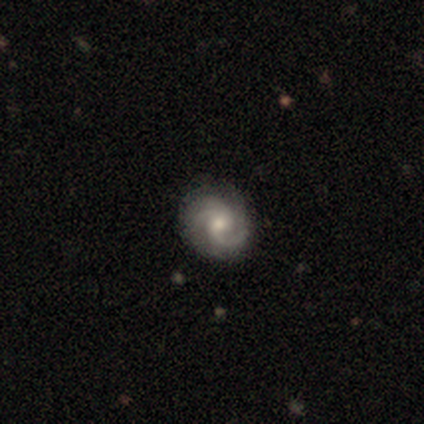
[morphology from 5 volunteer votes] type=featured or disk (80%); edge-on=no (100%); bar=weak (75%); spiral arms=yes (75%); winding=medium (67%); arm count=2 (100%); bulge=moderate (50%); merging=none (80%).